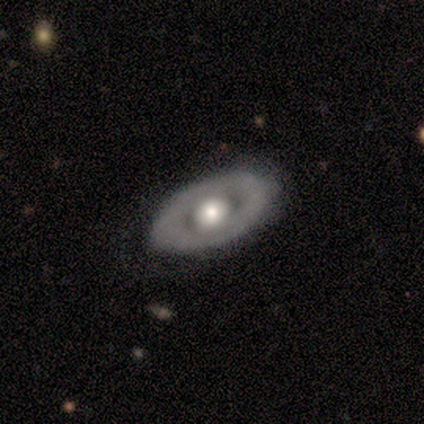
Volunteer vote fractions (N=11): featured or disk 55%, smooth 45%, star or artifact 0%. Down the decision tree: edge-on disk — no (83%); bar — no (100%); spiral arms — no (100%); bulge size — moderate (80%); merging — none (91%).